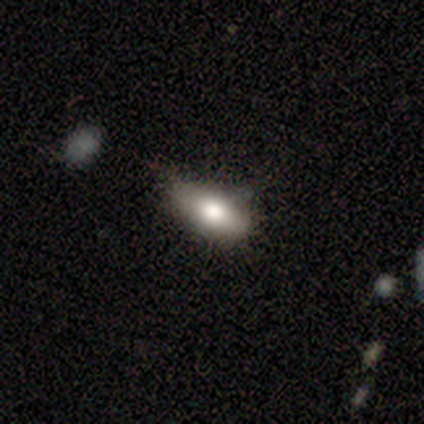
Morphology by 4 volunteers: Volunteers were most divided on "merging" (2-way tie): none: 50%, minor disturbance: 50%, major disturbance: 0%, merger: 0%. More confident: smooth or featured — smooth (75%); how rounded — in between (67%).